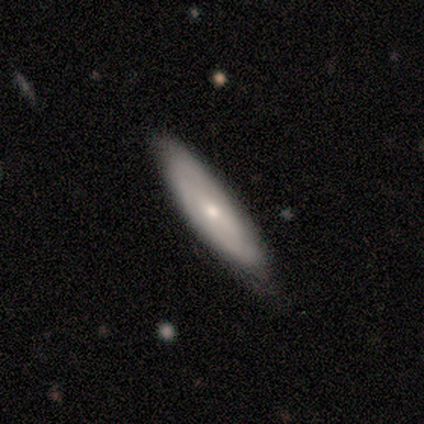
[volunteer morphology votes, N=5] type=featured or disk (60%); edge-on=no (67%); bar=no (100%); spiral arms=yes (100%); winding=tight (100%); arm count=can't tell (100%); bulge=moderate (50%, tied with small); merging=none (80%).